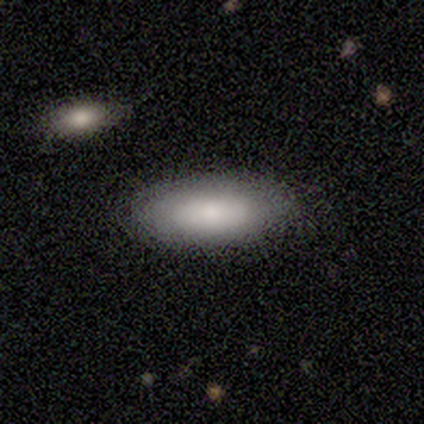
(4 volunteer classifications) smooth-or-featured: smooth: 75% | star or artifact: 25% | featured or disk: 0%
  how-rounded: in between: 100% | round: 0% | cigar-shaped: 0%
  merging: none: 100% | minor disturbance: 0% | major disturbance: 0% | merger: 0%